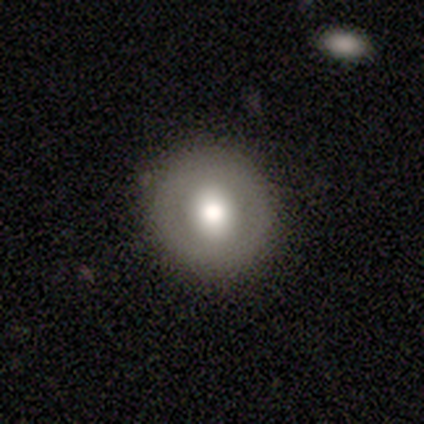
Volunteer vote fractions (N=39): Q: Smooth or featured?
A: smooth (62%); runner-up: featured or disk (38%)
Q: How rounded?
A: round (96%); runner-up: in between (4%)
Q: Merging?
A: none (79%); runner-up: major disturbance (3%)